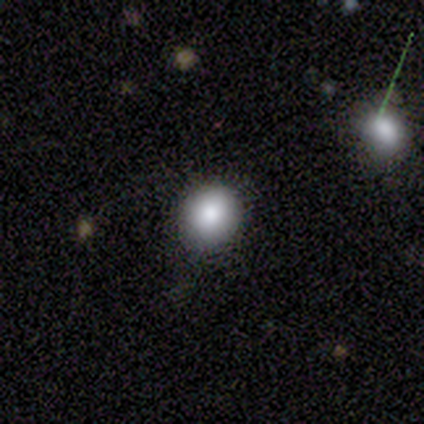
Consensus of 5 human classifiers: Smooth or featured? smooth (80%)
How rounded? round (50%, tied with in between)
Merging? none (100%)